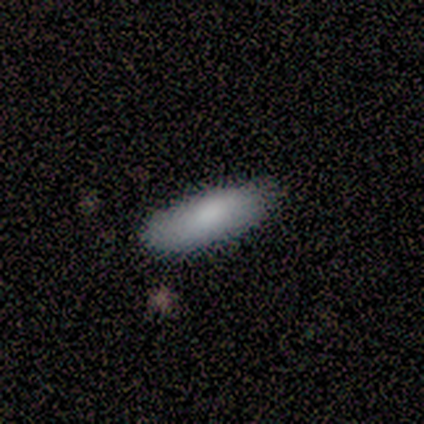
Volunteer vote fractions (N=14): A smooth galaxy with no disk features (71%) that is in between round and cigar-shaped (60%).

Vote fractions:
- Smooth or featured? smooth: 71% / featured or disk: 29% / star or artifact: 0%
- How rounded? in between: 60% / cigar-shaped: 40% / round: 0%
- Merging? none: 100% / minor disturbance: 0% / major disturbance: 0% / merger: 0%